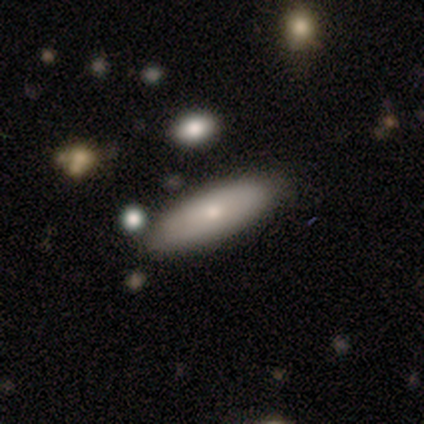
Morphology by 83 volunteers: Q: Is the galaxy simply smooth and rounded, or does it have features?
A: smooth — 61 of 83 (73%).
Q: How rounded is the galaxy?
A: in between — 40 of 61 (66%).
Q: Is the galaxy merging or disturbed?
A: none — 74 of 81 (91%).